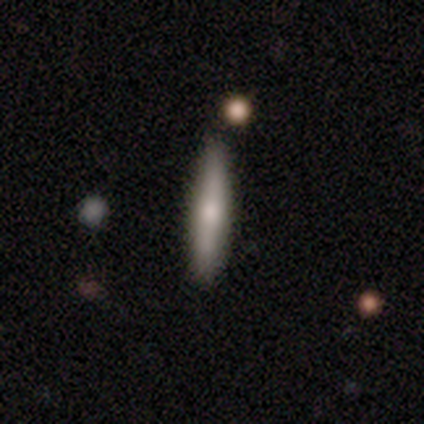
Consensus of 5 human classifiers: Smooth or featured?
  - featured or disk: 80% *
  - smooth: 20%
  - star or artifact: 0%
Edge-on disk?
  - yes: 100% *
  - no: 0%
Edge-on bulge?
  - rounded: 100% *
  - boxy: 0%
  - none: 0%
Merging?
  - none: 100% *
  - minor disturbance: 0%
  - major disturbance: 0%
  - merger: 0%